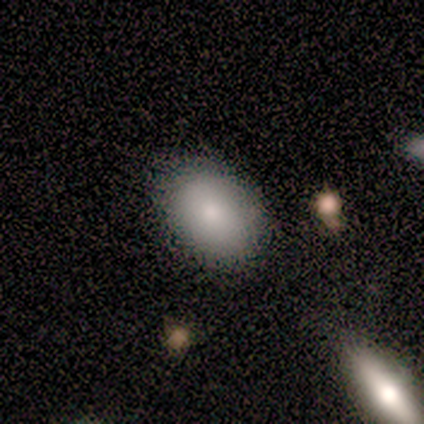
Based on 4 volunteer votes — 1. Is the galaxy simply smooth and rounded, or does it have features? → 100% smooth, 0% featured or disk, 0% star or artifact.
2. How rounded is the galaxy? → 100% in between, 0% round, 0% cigar-shaped.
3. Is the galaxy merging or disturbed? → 100% none, 0% minor disturbance, 0% major disturbance, 0% merger.